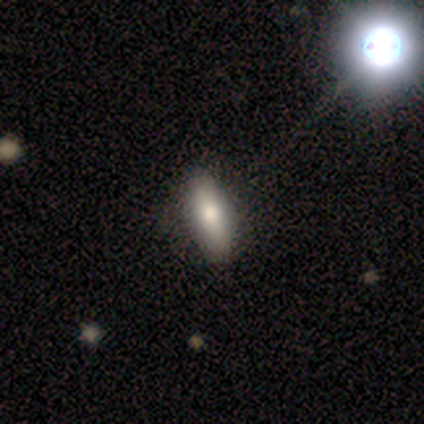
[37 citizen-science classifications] Smooth or featured? smooth (84%)
How rounded? in between (71%)
Merging? none (91%)